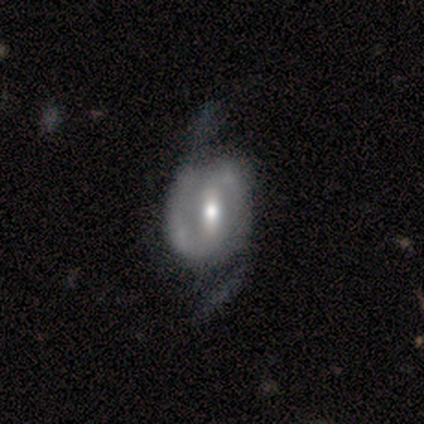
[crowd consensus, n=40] featured or disk 92%, star or artifact 5%, smooth 2%. Down the decision tree: edge-on disk — no (97%); bar — strong (56%); spiral arms — yes (78%); spiral arm count — 2 (100%); spiral winding — medium (39%, tied with loose); bulge size — moderate (61%); merging — none (42%).